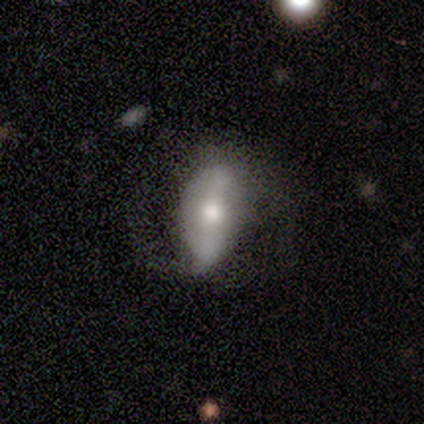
Smooth or featured? featured or disk (80%)
Edge-on disk? no (100%)
Bar? weak (50%)
Spiral arms? yes (75%)
Spiral winding? loose (67%)
Spiral arm count? 2 (67%)
Bulge size? moderate (75%)
Merging? none (40%, tied with minor disturbance)